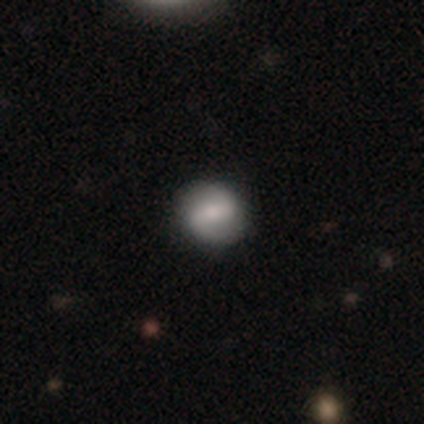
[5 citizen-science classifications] Smooth or featured: featured or disk — 60% (smooth — 40%)
Edge-on disk: no — 100%
Bar: weak — 100%
Spiral arms: yes — 100%
Spiral winding: loose — 67% (medium — 33%)
Spiral arm count: 2 — 100%
Bulge size: moderate — 100%
Merging: none — 80% (minor disturbance — 20%)